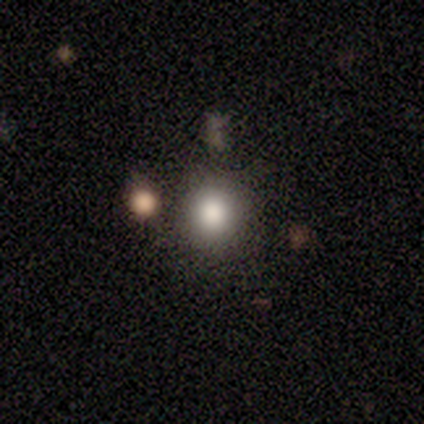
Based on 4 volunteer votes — This is likely a smooth galaxy (75%). How rounded: likely round (67%). Merging: likely none (67%).